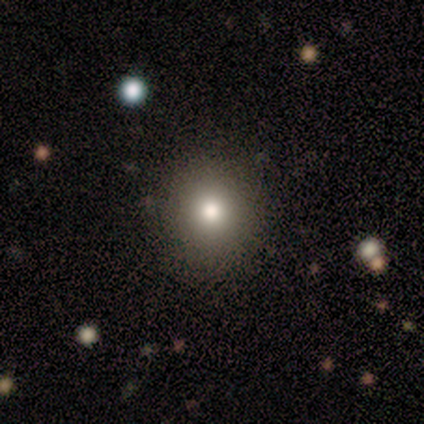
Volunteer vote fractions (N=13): A smooth galaxy with no disk features (85%) that is round (100%).

Vote fractions:
- Smooth or featured? smooth: 85% / featured or disk: 8% / star or artifact: 8%
- How rounded? round: 100% / in between: 0% / cigar-shaped: 0%
- Merging? none: 92% / major disturbance: 8% / minor disturbance: 0% / merger: 0%